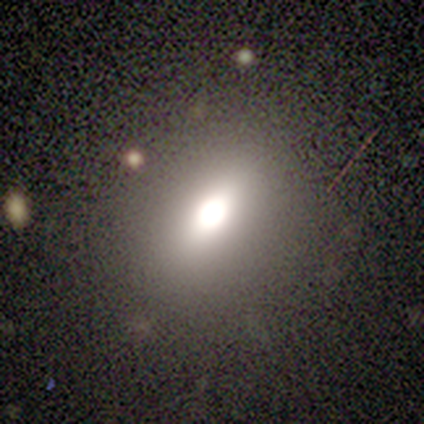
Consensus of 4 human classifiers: smooth-or-featured: smooth: 75% | featured or disk: 25% | star or artifact: 0%
  how-rounded: in between: 67% | round: 33% | cigar-shaped: 0%
  merging: none: 75% | minor disturbance: 25% | major disturbance: 0% | merger: 0%